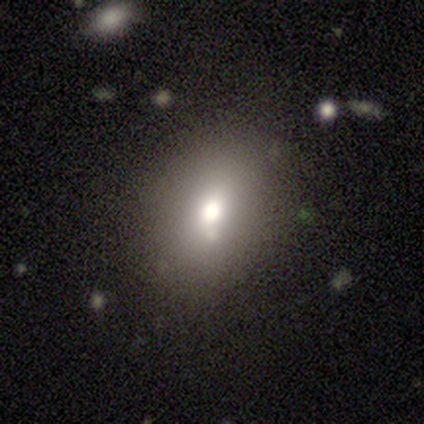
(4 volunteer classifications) Volunteers were most divided on "how rounded": in between: 67%, round: 33%, cigar-shaped: 0%. More confident: smooth or featured — smooth (75%); merging — none (75%).